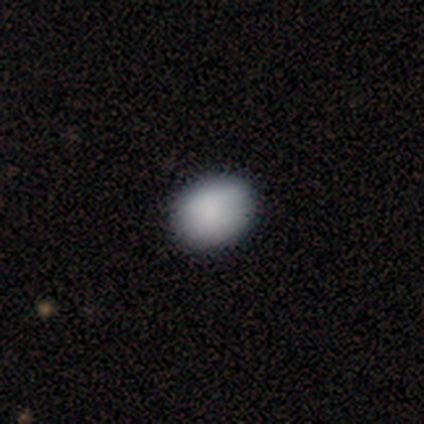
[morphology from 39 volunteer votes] type=smooth (85%); roundness=in between (61%); merging=none (62%).